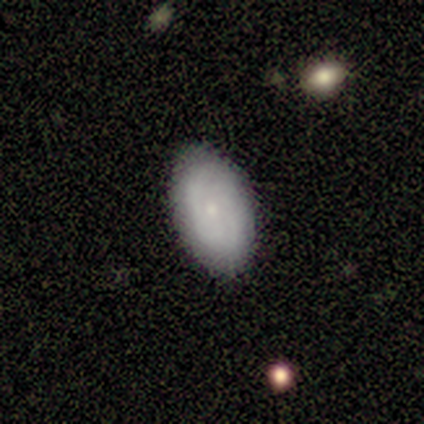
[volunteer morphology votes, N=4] smooth_or_featured: smooth (p=0.50) [tied with: featured or disk p=0.50]
how_rounded: in between (p=1.00)
merging: none (p=0.75) [alt: minor disturbance p=0.25]